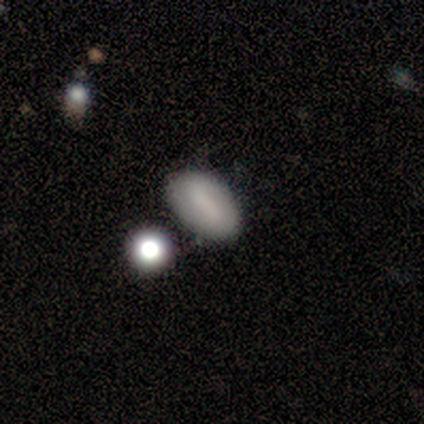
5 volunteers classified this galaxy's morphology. Smooth or featured? smooth (80%)
How rounded? in between (75%)
Merging? none (60%)